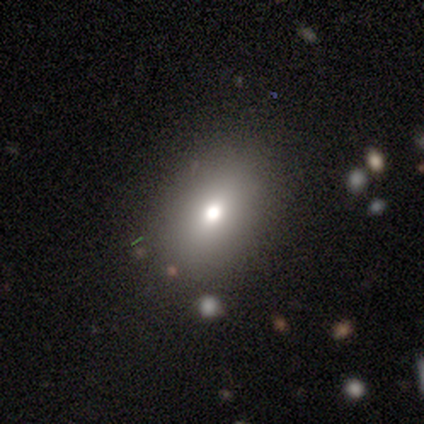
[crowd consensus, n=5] Morphology: type=smooth (60%); roundness=in between (100%); merging=none (100%).